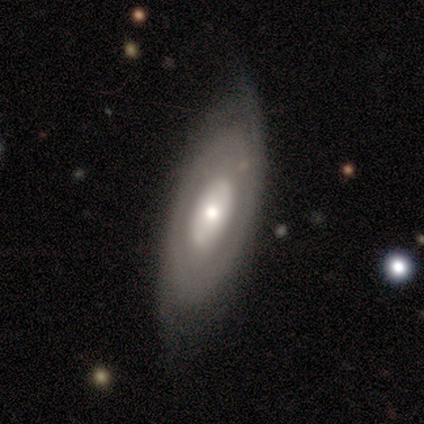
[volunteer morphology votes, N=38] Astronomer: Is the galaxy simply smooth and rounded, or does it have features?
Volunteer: featured or disk — 71%.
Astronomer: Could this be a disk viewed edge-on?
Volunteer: no — 78%.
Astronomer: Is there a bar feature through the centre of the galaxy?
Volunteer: no — 81%.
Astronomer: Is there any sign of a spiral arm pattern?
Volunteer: yes — 52% (runner-up: no, 48%).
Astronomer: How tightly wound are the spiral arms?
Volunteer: medium — 45% (runner-up: tight, 36%).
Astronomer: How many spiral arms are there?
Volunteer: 2 — 73%.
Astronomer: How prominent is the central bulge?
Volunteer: moderate — 52% (runner-up: small, 33%).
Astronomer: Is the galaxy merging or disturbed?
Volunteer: none — 65%.